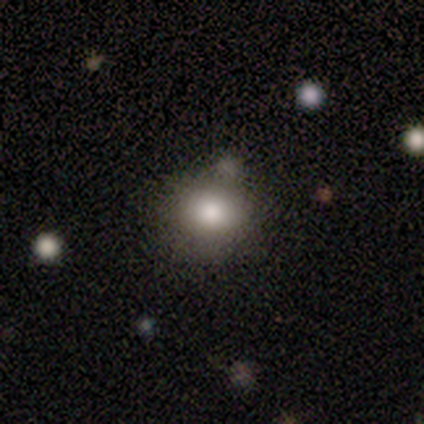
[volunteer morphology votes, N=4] Smooth or featured? 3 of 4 (75%) said smooth. How rounded? 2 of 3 (67%) said in between. Merging? 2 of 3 (67%) said none.